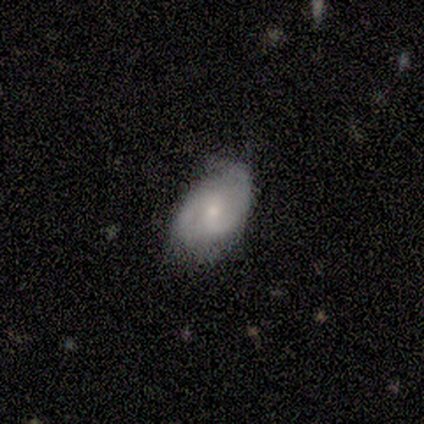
Smooth or featured? 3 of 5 (60%) said featured or disk. Edge-on disk? 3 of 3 (100%) said no. Bar? 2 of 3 (67%) said weak. Spiral arms? 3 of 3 (100%) said yes. Spiral winding? 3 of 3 (100%) said medium. Spiral arm count? 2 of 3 (67%) said 2. Bulge size? 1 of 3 (33%, tied with small and none) said moderate. Merging? 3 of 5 (60%) said none.